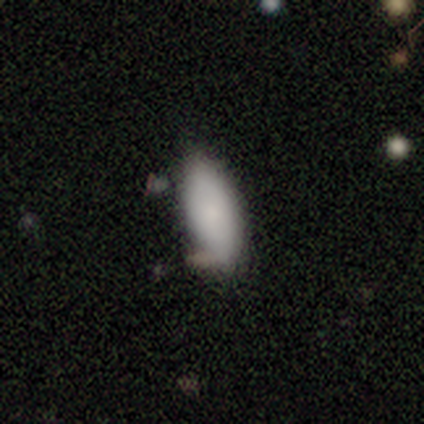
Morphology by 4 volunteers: smooth_or_featured: smooth (p=1.00)
how_rounded: in between (p=1.00)
merging: none (p=0.75) [alt: minor disturbance p=0.25]